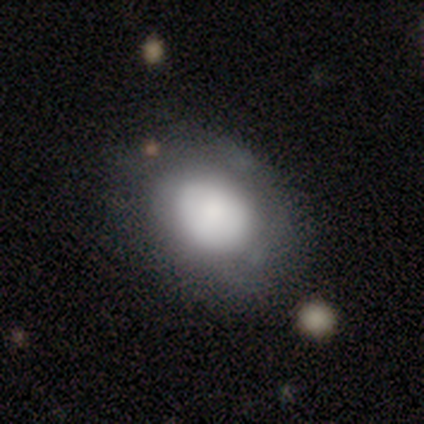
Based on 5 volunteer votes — A smooth galaxy with no disk features (100%) that is in between round and cigar-shaped (80%). Merging: none (80%).